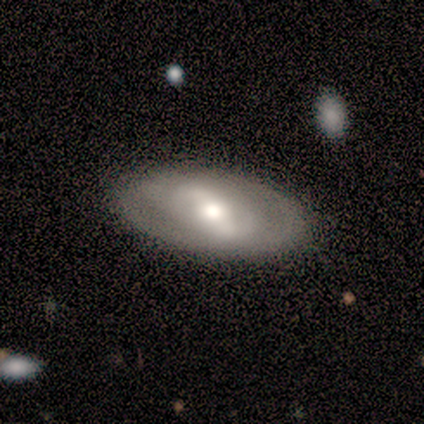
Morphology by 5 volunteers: featured or disk 60%, smooth 40%, star or artifact 0%. Down the decision tree: edge-on disk — no (100%); bar — weak (67%); spiral arms — no (67%); bulge size — moderate (100%); merging — none (100%).